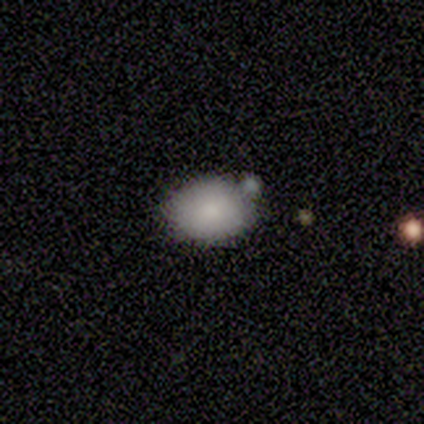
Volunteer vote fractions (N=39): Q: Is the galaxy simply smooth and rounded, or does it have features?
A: smooth — 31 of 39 (79%).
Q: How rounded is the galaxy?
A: in between — 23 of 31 (74%).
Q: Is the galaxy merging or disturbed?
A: none — 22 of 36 (61%).